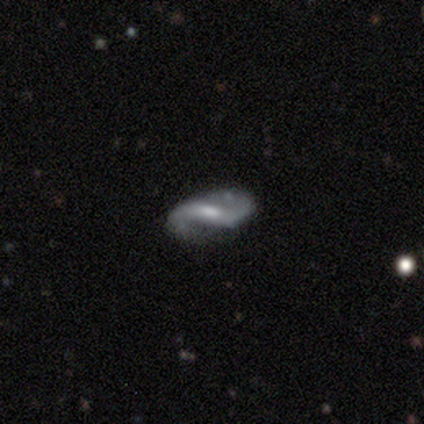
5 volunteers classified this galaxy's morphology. A featured or disk galaxy (60%) with no bar (100%), 2 (100%) loose (67%) spiral arms (100%) and a moderate central bulge (33%, tied with small and none).

Vote fractions:
- Smooth or featured? featured or disk: 60% / smooth: 40% / star or artifact: 0%
- Edge-on disk? no: 100% / yes: 0%
- Bar? no: 100% / strong: 0% / weak: 0%
- Spiral arms? yes: 100% / no: 0%
- Spiral winding? loose: 67% / tight: 33% / medium: 0%
- Spiral arm count? 2: 100% / 1: 0% / 3: 0% / 4: 0% / more than 4: 0% / can't tell: 0%
- Bulge size? moderate: 33% (tied) / small: 33% (tied) / none: 33% (tied) / dominant: 0% / large: 0%
- Merging? none: 60% / major disturbance: 40% / minor disturbance: 0% / merger: 0%